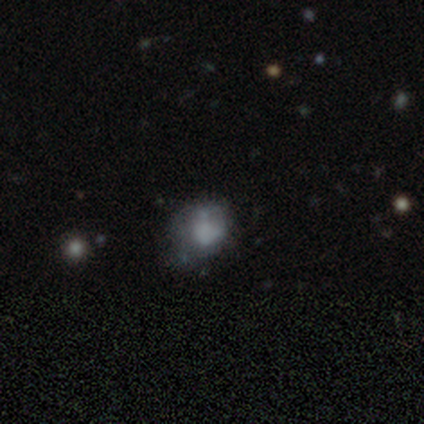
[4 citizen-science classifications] Q: Smooth or featured?
A: smooth (75%); runner-up: featured or disk (25%)
Q: How rounded?
A: in between (67%); runner-up: round (33%)
Q: Merging?
A: none (50%); tied with: minor disturbance (50%)